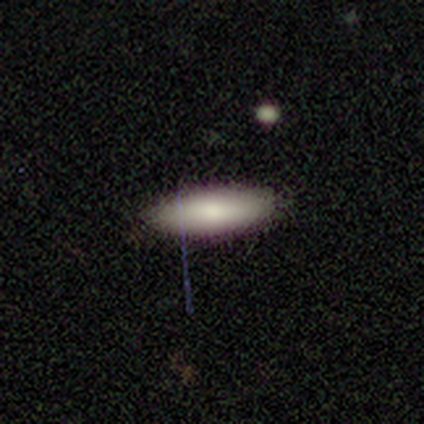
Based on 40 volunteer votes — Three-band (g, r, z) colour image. It shows a smooth galaxy with no disk features (90%) that is in between round and cigar-shaped (53%). Merging: none (84%).